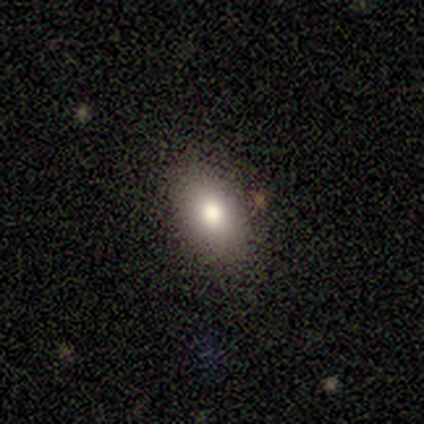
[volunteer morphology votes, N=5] Q: Smooth or featured?
A: smooth (60%); runner-up: featured or disk (40%)
Q: How rounded?
A: in between (67%); runner-up: round (33%)
Q: Merging?
A: none (80%); runner-up: minor disturbance (20%)